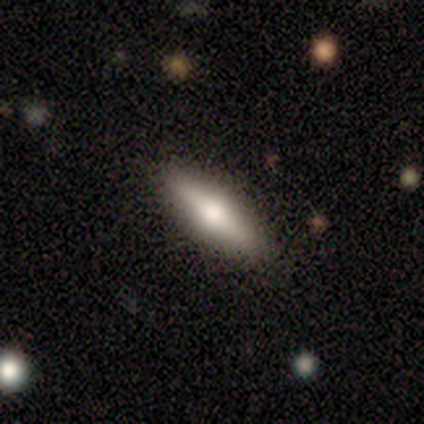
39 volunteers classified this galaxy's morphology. type=smooth (51%); roundness=cigar-shaped (60%); merging=none (61%).